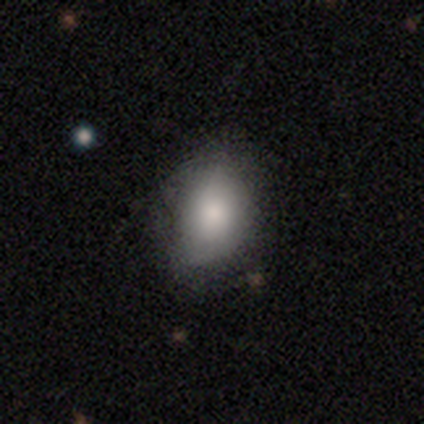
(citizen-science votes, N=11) This appears to be a smooth galaxy with no disk features (73%) that is in between round and cigar-shaped (62%). Merging: none (44%, tied with minor disturbance).